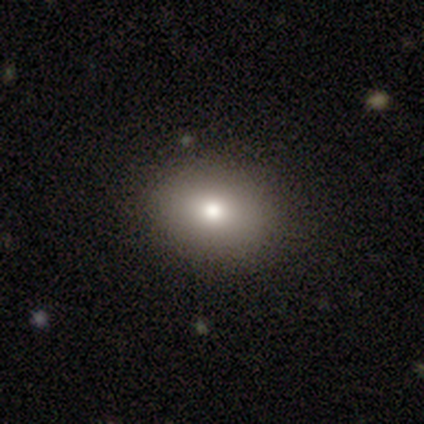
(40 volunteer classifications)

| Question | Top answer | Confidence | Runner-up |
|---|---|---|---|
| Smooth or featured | smooth | 72% | star or artifact (18%) |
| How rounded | in between | 62% | round (38%) |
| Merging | none | 88% | minor disturbance (6%) |